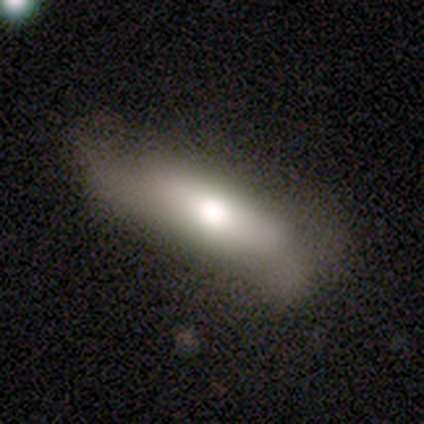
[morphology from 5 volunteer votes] A featured or disk galaxy (60%) viewed edge-on (67%) with a rounded central bulge (100%).

Vote fractions:
- Smooth or featured? featured or disk: 60% / smooth: 40% / star or artifact: 0%
- Edge-on disk? yes: 67% / no: 33%
- Edge-on bulge? rounded: 100% / boxy: 0% / none: 0%
- Merging? none: 60% / minor disturbance: 20% / major disturbance: 20% / merger: 0%